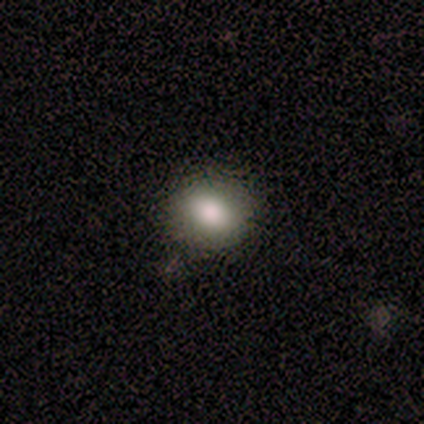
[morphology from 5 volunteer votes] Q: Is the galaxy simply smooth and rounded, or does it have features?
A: smooth — 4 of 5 (80%).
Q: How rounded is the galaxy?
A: round — 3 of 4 (75%).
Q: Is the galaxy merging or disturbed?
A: none — 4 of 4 (100%).